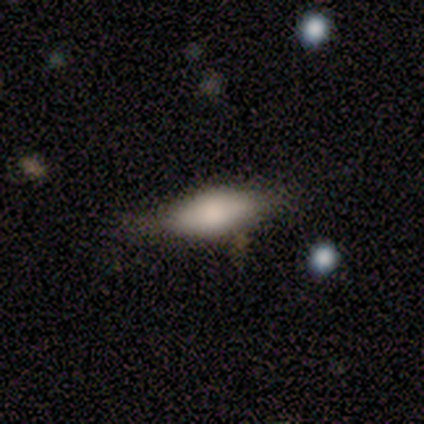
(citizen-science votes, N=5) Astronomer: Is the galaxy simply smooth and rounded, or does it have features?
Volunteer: smooth — 100%.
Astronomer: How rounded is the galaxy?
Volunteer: in between — 80%.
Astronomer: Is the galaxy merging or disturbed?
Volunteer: none — 100%.